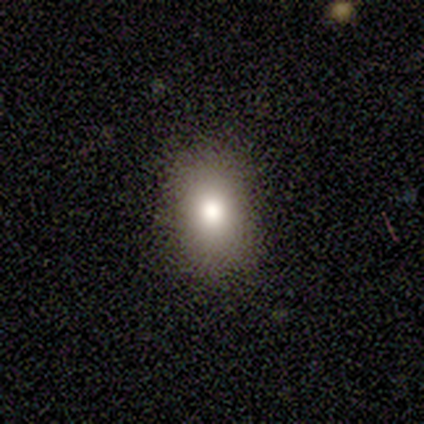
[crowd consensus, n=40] smooth_or_featured: smooth (p=0.80) [alt: star or artifact p=0.15]
how_rounded: in between (p=0.78) [alt: round p=0.19]
merging: none (p=0.88) [alt: minor disturbance p=0.09]